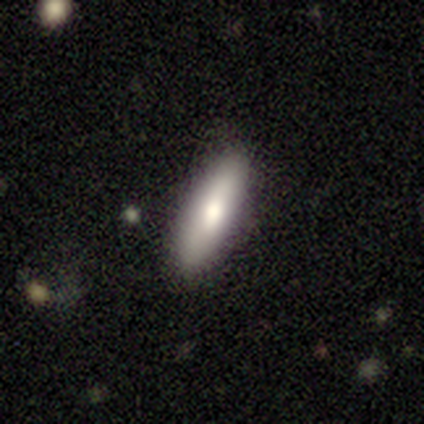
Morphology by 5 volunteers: smooth 100%, featured or disk 0%, star or artifact 0%. Down the decision tree: how rounded — in between (60%); merging — none (100%).